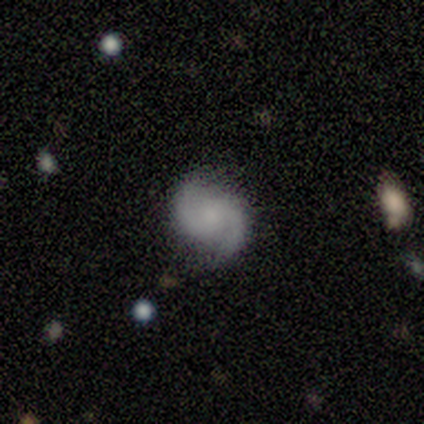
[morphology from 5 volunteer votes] smooth_or_featured: featured or disk (p=1.00)
disk_edge_on: no (p=1.00)
bar: strong (p=0.60) [alt: weak p=0.20]
has_spiral_arms: yes (p=1.00)
spiral_winding: medium (p=0.60) [alt: loose p=0.40]
spiral_arm_count: 2 (p=1.00)
bulge_size: small (p=0.60) [alt: none p=0.40]
merging: none (p=1.00)